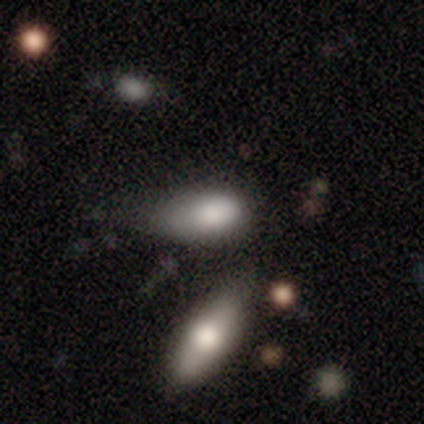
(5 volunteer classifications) smooth-or-featured: smooth: 80% | featured or disk: 20% | star or artifact: 0%
  how-rounded: in between: 75% | cigar-shaped: 25% | round: 0%
  merging: minor disturbance: 60% | major disturbance: 40% | none: 0% | merger: 0%